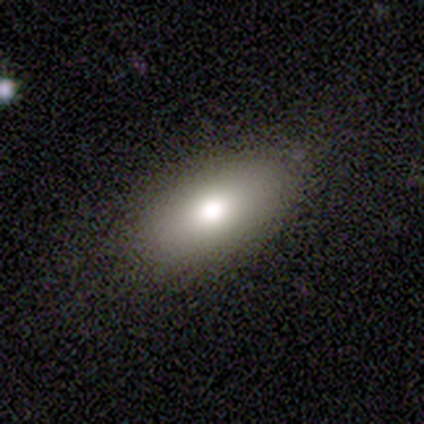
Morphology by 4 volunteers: Overall: smooth (100%). How rounded: in between (100%). Merging: none (100%).